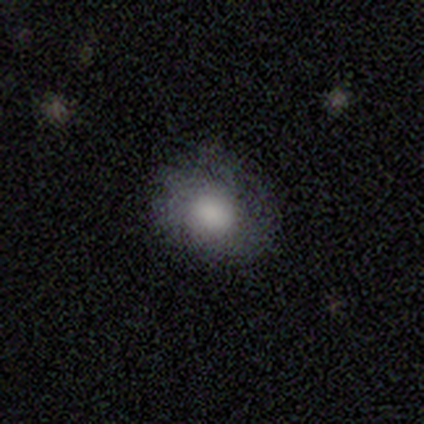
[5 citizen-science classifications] A smooth galaxy with no disk features (80%) that is round (75%). Merging: none (100%).